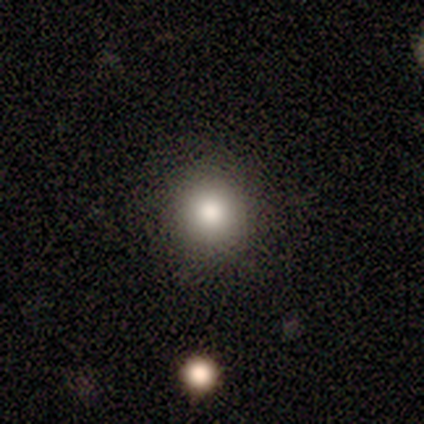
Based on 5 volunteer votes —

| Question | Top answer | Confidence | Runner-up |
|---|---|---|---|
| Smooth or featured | smooth | 80% | star or artifact (20%) |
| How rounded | round | 100% | — |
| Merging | none | 100% | — |